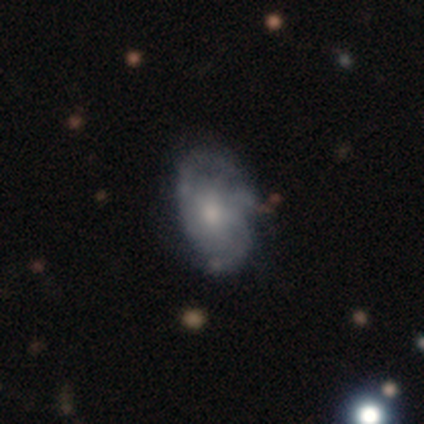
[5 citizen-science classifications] This is likely a featured or disk galaxy (60%). It is clearly not viewed edge-on (100%). Bar: clearly no (100%). Spiral arm pattern: likely yes (67%). Spiral arm count: possibly 3 (50%, tied with can't tell). Spiral winding: possibly medium (50%, tied with loose). Central bulge: clearly moderate (100%). Merging: likely minor disturbance (60%).